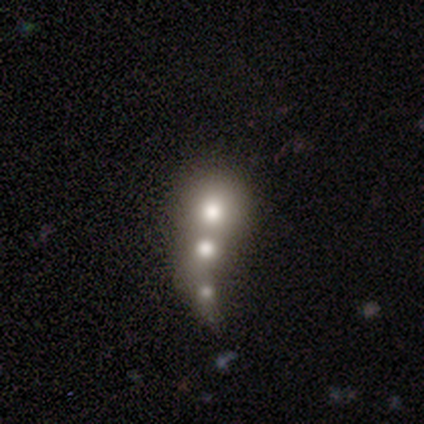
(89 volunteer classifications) Smooth or featured: smooth — 51% (featured or disk — 28%)
How rounded: round — 73% (in between — 18%)
Merging: merger — 74% (none — 19%)